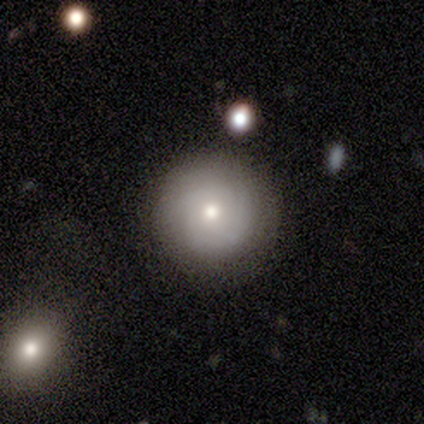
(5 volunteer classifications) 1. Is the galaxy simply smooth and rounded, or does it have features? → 80% smooth, 20% featured or disk, 0% star or artifact.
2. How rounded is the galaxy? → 100% round, 0% in between, 0% cigar-shaped.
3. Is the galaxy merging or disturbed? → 100% none, 0% minor disturbance, 0% major disturbance, 0% merger.